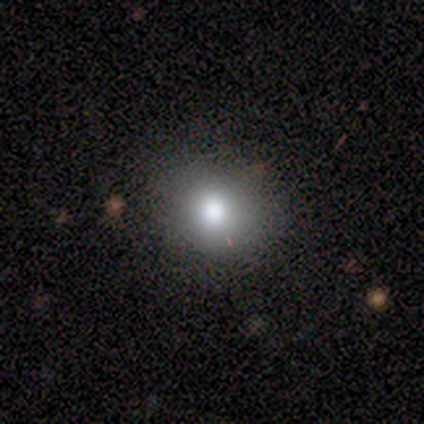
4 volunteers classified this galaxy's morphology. smooth-or-featured: smooth: 75% | featured or disk: 25% | star or artifact: 0%
  how-rounded: round: 100% | in between: 0% | cigar-shaped: 0%
  merging: none: 100% | minor disturbance: 0% | major disturbance: 0% | merger: 0%